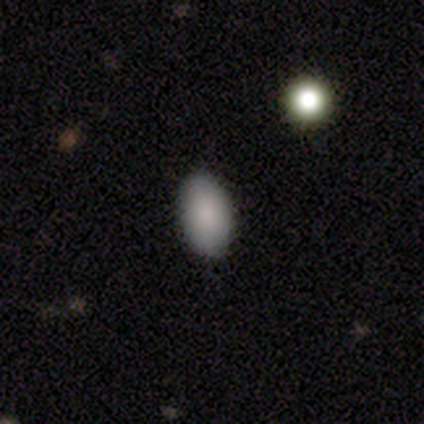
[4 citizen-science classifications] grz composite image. It shows a smooth galaxy with no disk features (100%) that is in between round and cigar-shaped (100%). Merging: none (100%).